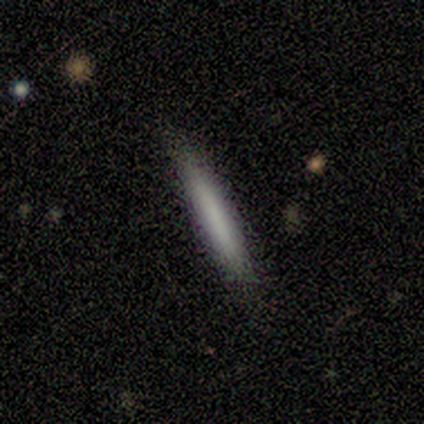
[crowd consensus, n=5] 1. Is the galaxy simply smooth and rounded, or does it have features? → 80% smooth, 20% featured or disk, 0% star or artifact.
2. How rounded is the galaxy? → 100% cigar-shaped, 0% round, 0% in between.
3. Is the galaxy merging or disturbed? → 100% none, 0% minor disturbance, 0% major disturbance, 0% merger.